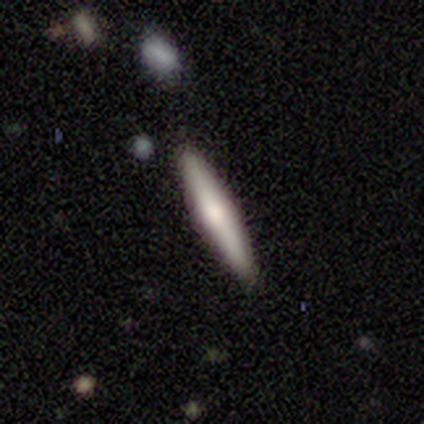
This appears to be a smooth galaxy with no disk features (40%, tied with featured or disk) that is cigar-shaped (100%). Merging: none (75%).